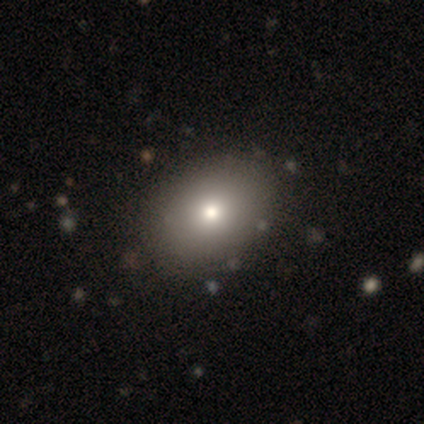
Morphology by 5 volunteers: smooth-or-featured: smooth: 100% | featured or disk: 0% | star or artifact: 0%
  how-rounded: in between: 100% | round: 0% | cigar-shaped: 0%
  merging: none: 100% | minor disturbance: 0% | major disturbance: 0% | merger: 0%